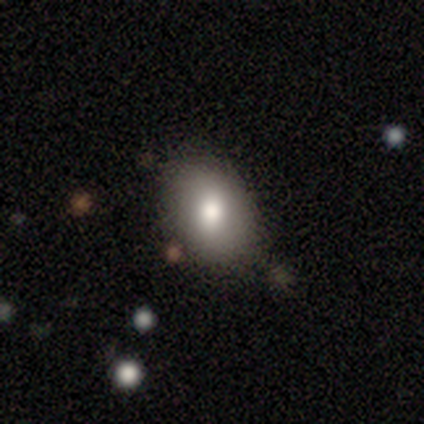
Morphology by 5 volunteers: A smooth galaxy with no disk features (60%) that is in between round and cigar-shaped (100%). Merging: none (67%).